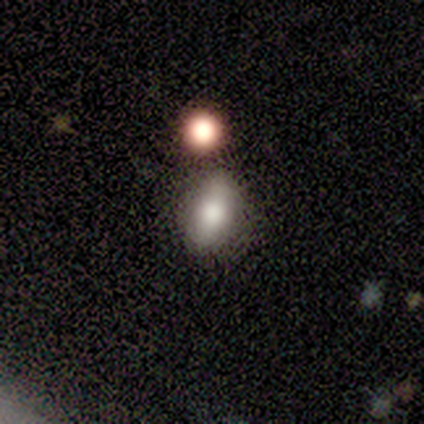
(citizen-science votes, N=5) Smooth or featured? smooth (80%)
How rounded? in between (75%)
Merging? none (100%)